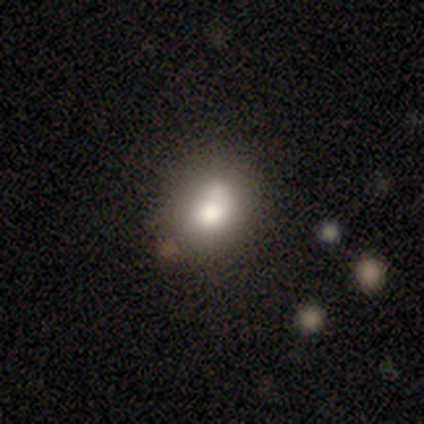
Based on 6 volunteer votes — smooth_or_featured: smooth (p=0.50) [tied with: featured or disk p=0.50]
how_rounded: in between (p=0.67) [alt: round p=0.33]
merging: none (p=0.50) [alt: merger p=0.33]